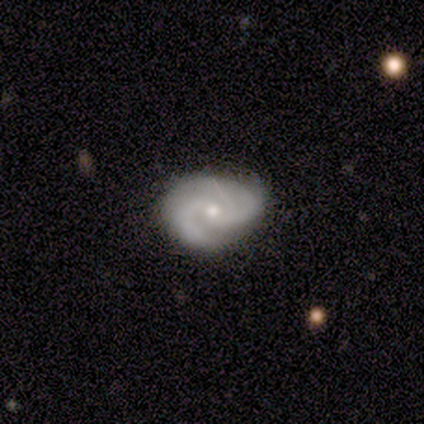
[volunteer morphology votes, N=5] This is clearly a featured or disk galaxy (100%). It is clearly not viewed edge-on (80%). Bar: likely no (75%). Spiral arm pattern: clearly yes (100%). Spiral arm count: likely 2 (75%). Spiral winding: possibly tight (50%). Central bulge: likely small (75%). Merging: clearly none (100%).